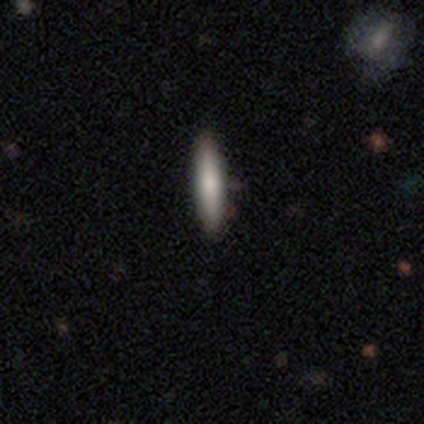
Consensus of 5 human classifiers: Volunteers were most divided on "smooth or featured": smooth: 60%, featured or disk: 40%, star or artifact: 0%. More confident: merging — none (100%); how rounded — cigar-shaped (67%).